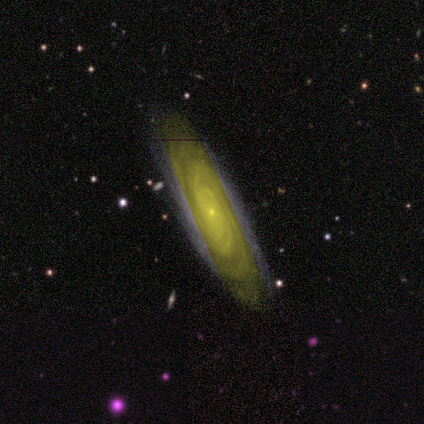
Overall: featured or disk (75%). Edge-on disk: no (100%). Bar: no (100%). Spiral arms: yes (100%). Spiral arm count: 2 (33%, tied with 3 and 4). Spiral winding: tight (100%). Bulge size: small (100%). Merging: none (100%).